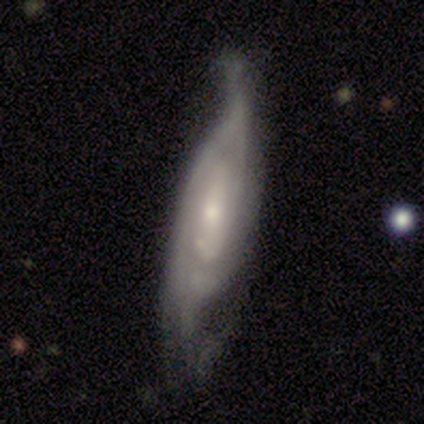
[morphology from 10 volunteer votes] Smooth or featured: featured or disk — 90% (smooth — 10%)
Edge-on disk: no — 89% (yes — 11%)
Bar: no — 50% (weak — 38%)
Spiral arms: yes — 88% (no — 12%)
Spiral winding: tight — 43% (tied with medium — 43%)
Spiral arm count: 2 — 57% (can't tell — 29%)
Bulge size: small — 100%
Merging: none — 50% (minor disturbance — 30%)